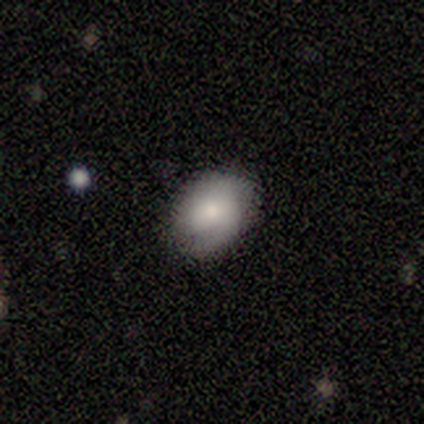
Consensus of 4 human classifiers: smooth 100%, featured or disk 0%, star or artifact 0%. Down the decision tree: how rounded — round (50%, tied with in between); merging — none (50%, tied with minor disturbance).